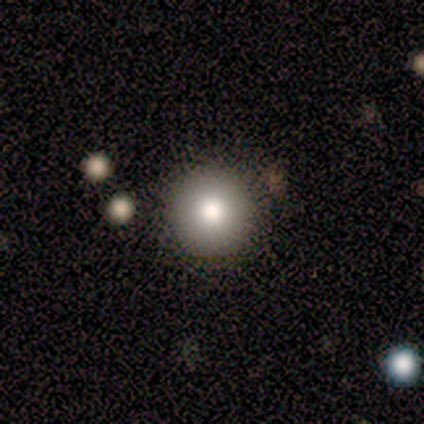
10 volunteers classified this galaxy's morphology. This appears to be a smooth galaxy with no disk features (80%) that is round (100%). Merging: none (89%).